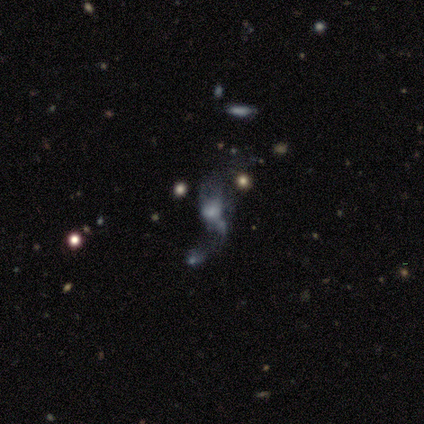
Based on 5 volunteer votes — smooth_or_featured: smooth (p=0.60) [alt: star or artifact p=0.40]
how_rounded: in between (p=1.00)
merging: none (p=0.67) [alt: merger p=0.33]